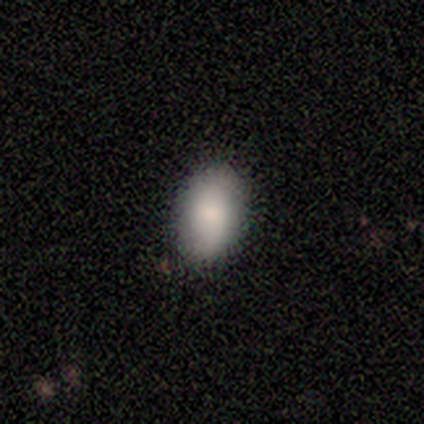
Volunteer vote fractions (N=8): smooth 88%, star or artifact 12%, featured or disk 0%. Down the decision tree: how rounded — in between (100%); merging — none (71%).